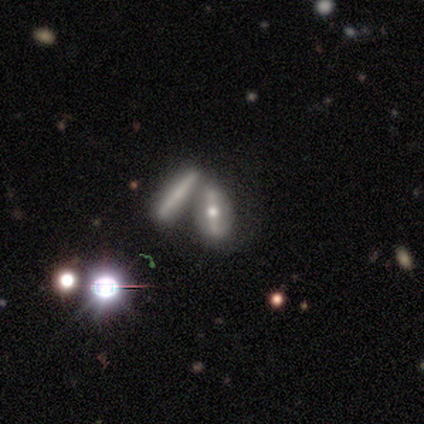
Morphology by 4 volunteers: smooth-or-featured: featured or disk: 75% | smooth: 25% | star or artifact: 0%
  disk-edge-on: yes: 100% | no: 0%
    edge-on-bulge: rounded: 100% | boxy: 0% | none: 0%
  merging: merger: 100% | none: 0% | minor disturbance: 0% | major disturbance: 0%